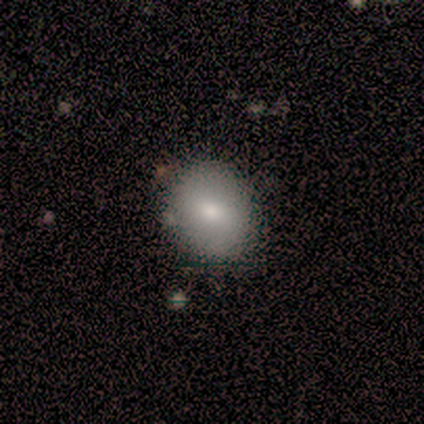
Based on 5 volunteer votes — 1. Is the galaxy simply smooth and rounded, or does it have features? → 100% smooth, 0% featured or disk, 0% star or artifact.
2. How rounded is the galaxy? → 60% in between, 40% round, 0% cigar-shaped.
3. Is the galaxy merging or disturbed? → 100% none, 0% minor disturbance, 0% major disturbance, 0% merger.